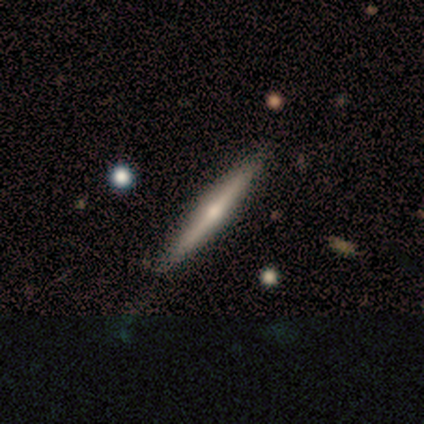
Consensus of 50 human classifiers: Morphology: type=featured or disk (64%); edge-on=yes (91%); edge-on bulge=rounded (97%); merging=none (75%).